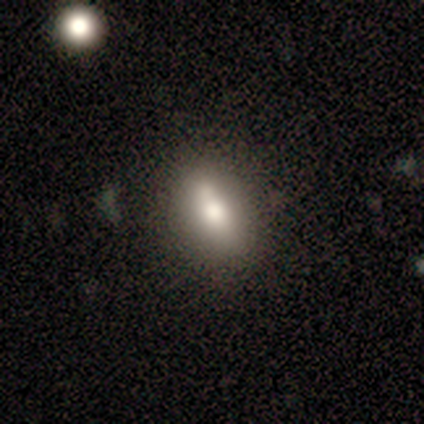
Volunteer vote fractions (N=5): smooth-or-featured: smooth: 80% | featured or disk: 20% | star or artifact: 0%
  how-rounded: in between: 75% | round: 25% | cigar-shaped: 0%
  merging: none: 60% | major disturbance: 20% | merger: 20% | minor disturbance: 0%